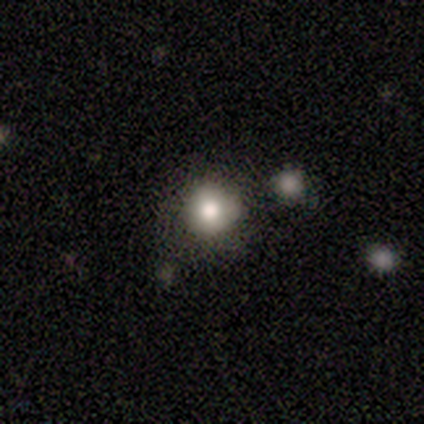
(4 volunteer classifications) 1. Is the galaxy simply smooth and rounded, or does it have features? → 100% smooth, 0% featured or disk, 0% star or artifact.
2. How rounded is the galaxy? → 100% round, 0% in between, 0% cigar-shaped.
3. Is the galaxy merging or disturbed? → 50% minor disturbance, 25% none, 25% major disturbance, 0% merger.